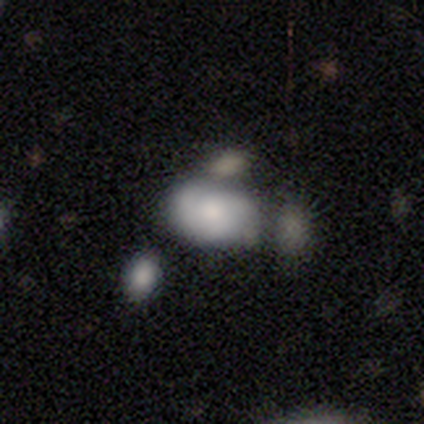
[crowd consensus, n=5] Overall: smooth (80%). How rounded: in between (100%). Merging: merger (60%; none 40%).